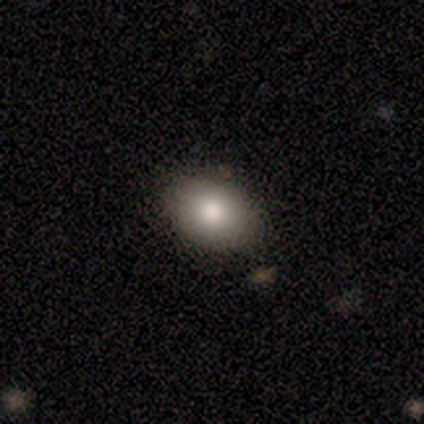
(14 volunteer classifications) Smooth or featured? smooth (86%)
How rounded? in between (67%)
Merging? none (92%)